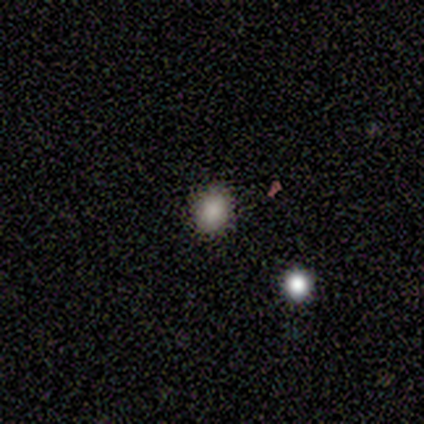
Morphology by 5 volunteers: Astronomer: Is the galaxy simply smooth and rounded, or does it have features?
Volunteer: smooth — 80%.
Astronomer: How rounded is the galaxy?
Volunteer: round — 75%.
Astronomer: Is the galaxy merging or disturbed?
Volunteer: none — 100%.